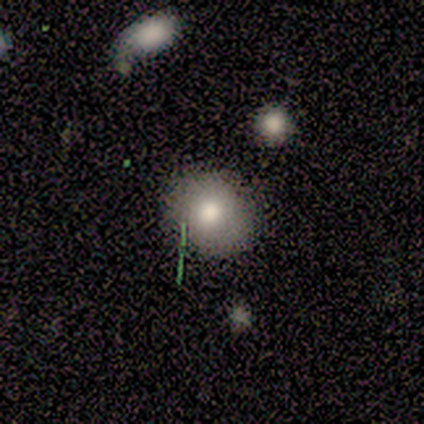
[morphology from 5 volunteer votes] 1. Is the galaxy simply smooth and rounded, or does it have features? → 60% star or artifact, 40% smooth, 0% featured or disk.